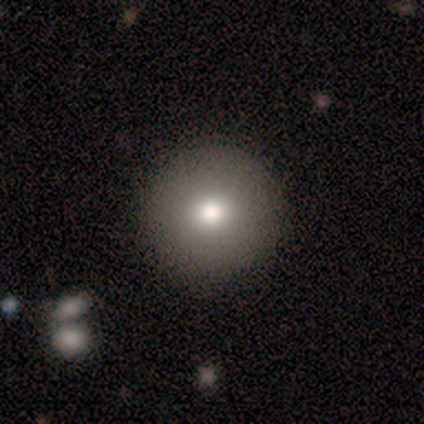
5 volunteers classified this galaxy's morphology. Smooth or featured: smooth — 60% (featured or disk — 20%)
How rounded: round — 100%
Merging: none — 75% (minor disturbance — 25%)